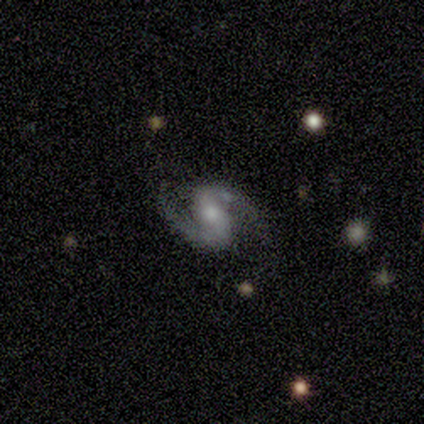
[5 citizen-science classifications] Smooth or featured? 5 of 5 (100%) said featured or disk. Edge-on disk? 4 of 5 (80%) said no. Bar? 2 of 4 (50%, tied with no) said strong. Spiral arms? 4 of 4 (100%) said yes. Spiral winding? 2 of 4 (50%) said medium. Spiral arm count? 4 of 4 (100%) said 2. Bulge size? 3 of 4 (75%) said moderate. Merging? 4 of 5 (80%) said none.